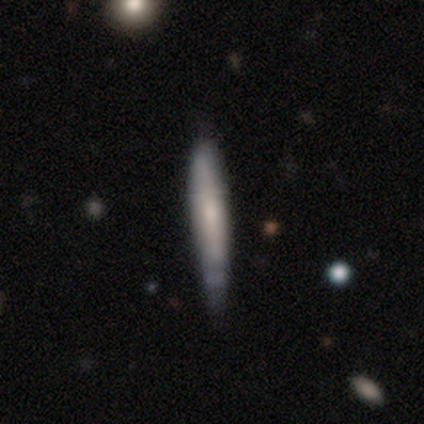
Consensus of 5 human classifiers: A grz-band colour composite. It shows a smooth galaxy with no disk features (60%) that is cigar-shaped (100%). Merging: none (80%).